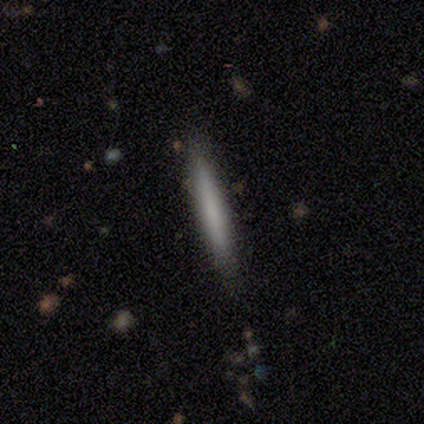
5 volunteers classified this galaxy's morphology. smooth-or-featured: smooth: 100% | featured or disk: 0% | star or artifact: 0%
  how-rounded: cigar-shaped: 100% | round: 0% | in between: 0%
  merging: none: 100% | minor disturbance: 0% | major disturbance: 0% | merger: 0%